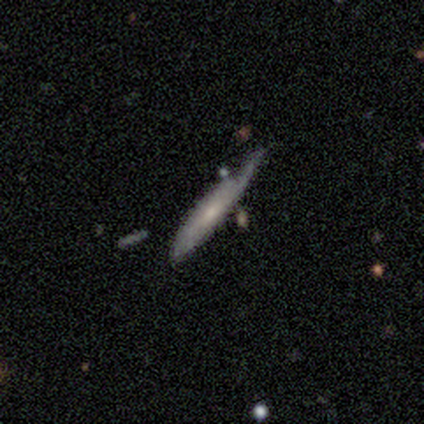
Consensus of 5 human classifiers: Morphology: type=smooth (60%); roundness=in between (100%); merging=minor disturbance (60%).